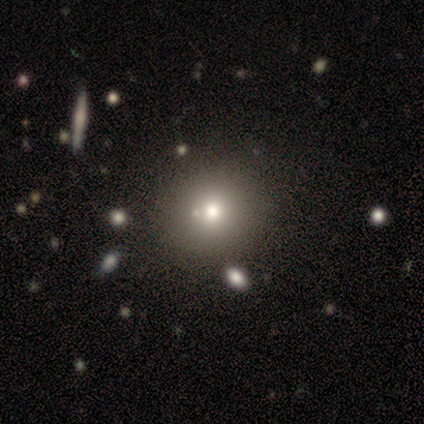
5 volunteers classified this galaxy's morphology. This appears to be a star or artifact, not a galaxy (60%).